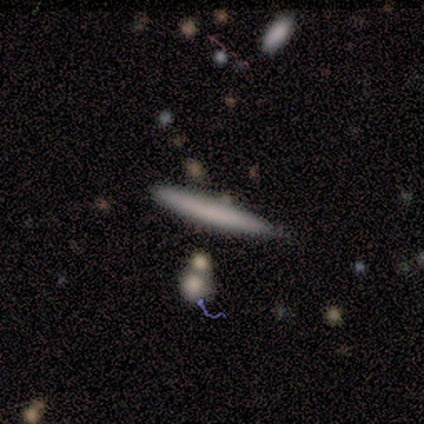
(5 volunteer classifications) Smooth or featured? 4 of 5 (80%) said smooth. How rounded? 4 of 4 (100%) said cigar-shaped. Merging? 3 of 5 (60%) said none.